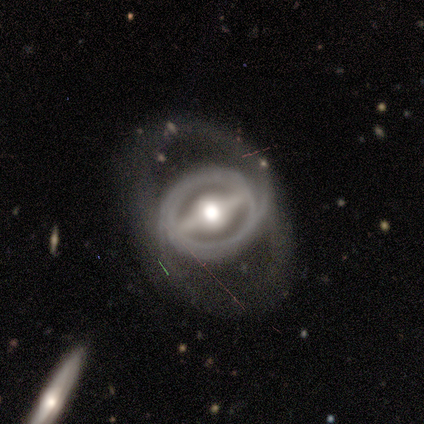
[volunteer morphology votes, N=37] smooth-or-featured: featured or disk: 92% | smooth: 8% | star or artifact: 0%
  disk-edge-on: no: 94% | yes: 6%
    bar: strong: 88% | weak: 9% | no: 3%
    has-spiral-arms: yes: 81% | no: 19%
      spiral-winding: tight: 65% | medium: 19% | loose: 15%
      spiral-arm-count: 2: 65% | can't tell: 27% | 3: 4% | more than 4: 4% | 1: 0% | 4: 0%
    bulge-size: moderate: 62% | large: 28% | dominant: 9% | small: 0% | none: 0%
  merging: none: 57% | minor disturbance: 22% | major disturbance: 22% | merger: 0%